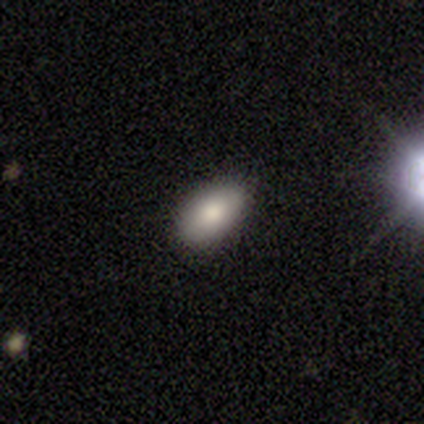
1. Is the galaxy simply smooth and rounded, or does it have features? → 100% smooth, 0% featured or disk, 0% star or artifact.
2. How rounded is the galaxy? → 100% in between, 0% round, 0% cigar-shaped.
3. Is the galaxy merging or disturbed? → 80% none, 20% minor disturbance, 0% major disturbance, 0% merger.